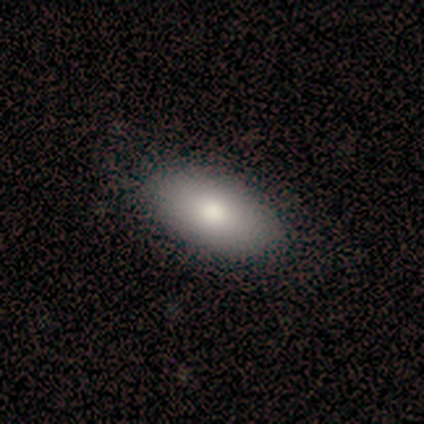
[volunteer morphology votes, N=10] Smooth or featured: smooth — 80% (featured or disk — 20%)
How rounded: in between — 100%
Merging: none — 90% (major disturbance — 10%)